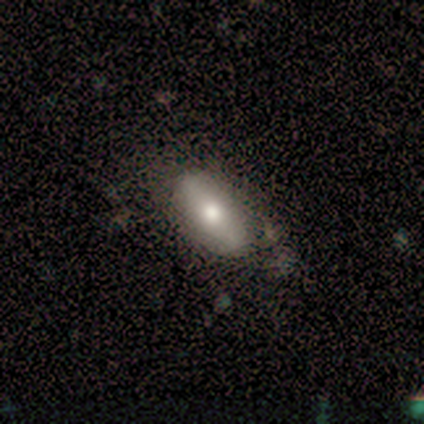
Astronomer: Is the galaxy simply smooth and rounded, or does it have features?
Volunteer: smooth — 60% (runner-up: featured or disk, 40%).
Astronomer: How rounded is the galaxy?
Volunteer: in between — 100%.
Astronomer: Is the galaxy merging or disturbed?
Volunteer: none — 80%.